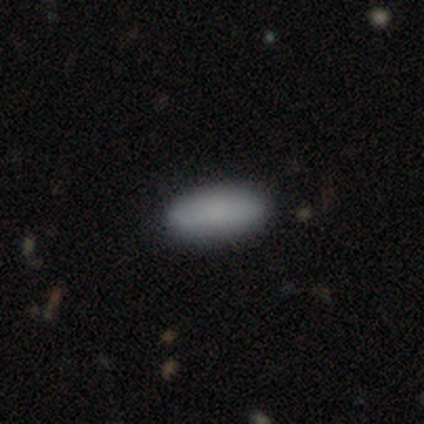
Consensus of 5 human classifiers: Smooth or featured: smooth — 100%
How rounded: in between — 100%
Merging: none — 80% (minor disturbance — 20%)